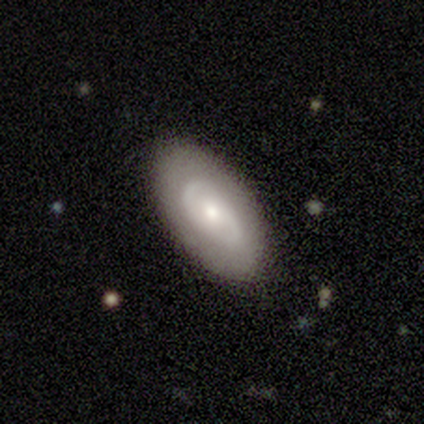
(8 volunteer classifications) A featured or disk galaxy (75%) with no bar (83%), no spiral arms (67%) and a moderate central bulge (50%, tied with small). Merging: none (88%).